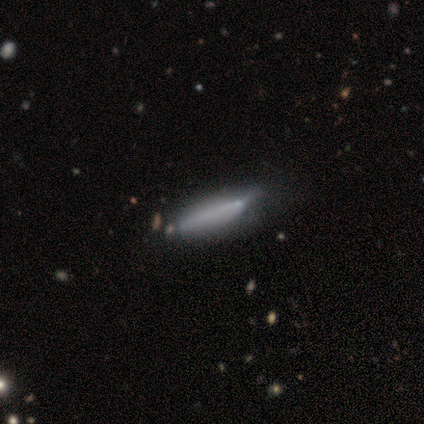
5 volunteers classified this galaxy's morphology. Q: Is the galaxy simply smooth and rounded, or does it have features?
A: featured or disk — 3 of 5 (60%).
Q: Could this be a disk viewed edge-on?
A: no — 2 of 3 (67%).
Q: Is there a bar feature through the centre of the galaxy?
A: no — 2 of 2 (100%).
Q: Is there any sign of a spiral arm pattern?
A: no — 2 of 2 (100%).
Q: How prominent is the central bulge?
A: small — 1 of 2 (50%, tied with none).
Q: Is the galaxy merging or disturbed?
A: none — 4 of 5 (80%).